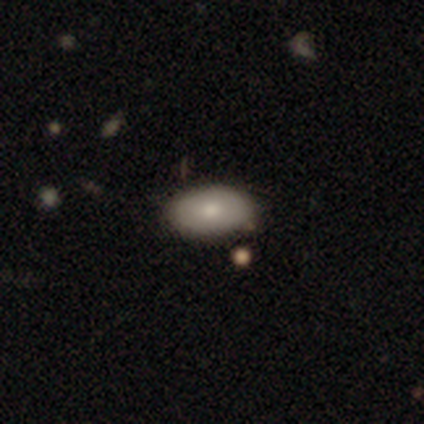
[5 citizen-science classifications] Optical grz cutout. It shows a smooth galaxy with no disk features (100%) that is in between round and cigar-shaped (100%). Merging: none (80%).